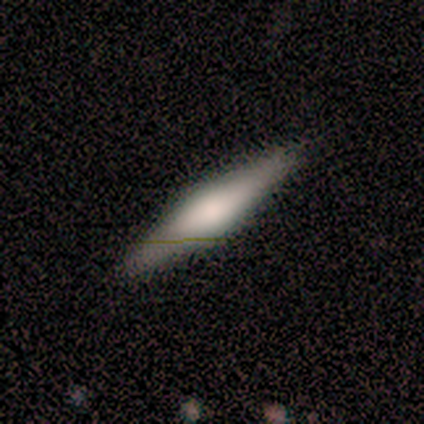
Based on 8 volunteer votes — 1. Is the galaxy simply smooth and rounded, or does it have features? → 50% smooth (tied), 50% featured or disk (tied), 0% star or artifact.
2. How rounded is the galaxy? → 75% cigar-shaped, 25% in between, 0% round.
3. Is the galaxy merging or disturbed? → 88% none, 12% minor disturbance, 0% major disturbance, 0% merger.